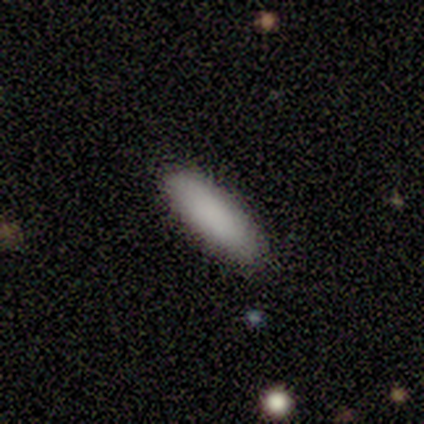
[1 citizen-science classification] Smooth or featured?
  - smooth: 100% *
  - featured or disk: 0%
  - star or artifact: 0%
How rounded?
  - cigar-shaped: 100% *
  - round: 0%
  - in between: 0%
Merging?
  - none: 100% *
  - minor disturbance: 0%
  - major disturbance: 0%
  - merger: 0%